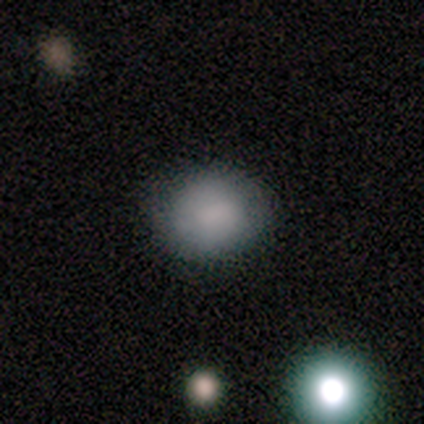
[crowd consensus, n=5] A smooth galaxy with no disk features (100%) that is in between round and cigar-shaped (60%). Merging: none (80%).